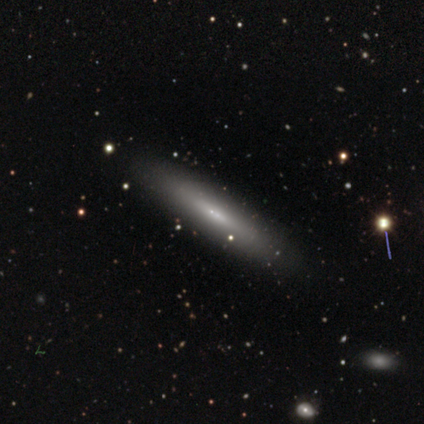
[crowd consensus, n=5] smooth-or-featured: smooth: 80% | featured or disk: 20% | star or artifact: 0%
  how-rounded: cigar-shaped: 100% | round: 0% | in between: 0%
  merging: none: 100% | minor disturbance: 0% | major disturbance: 0% | merger: 0%